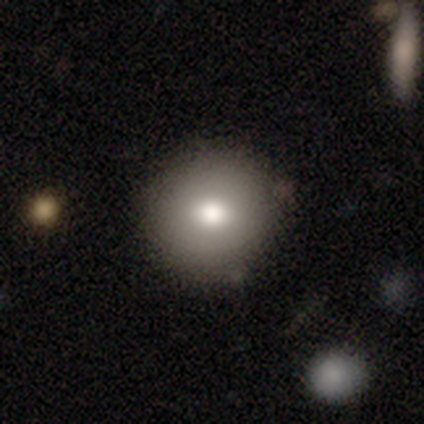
smooth 77%, featured or disk 15%, star or artifact 8%. Down the decision tree: how rounded — round (89%); merging — none (84%).